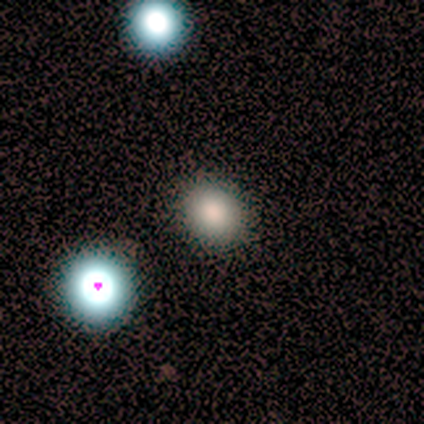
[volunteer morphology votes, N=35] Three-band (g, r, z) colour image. It shows a smooth galaxy with no disk features (66%) that is round (70%). Merging: none (93%).